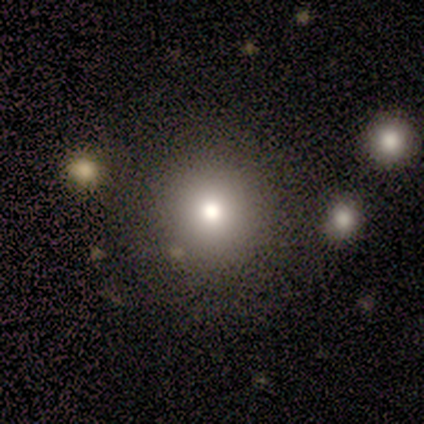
smooth-or-featured: smooth: 69% | featured or disk: 23% | star or artifact: 8%
  how-rounded: round: 100% | in between: 0% | cigar-shaped: 0%
  merging: none: 75% | minor disturbance: 17% | merger: 8% | major disturbance: 0%